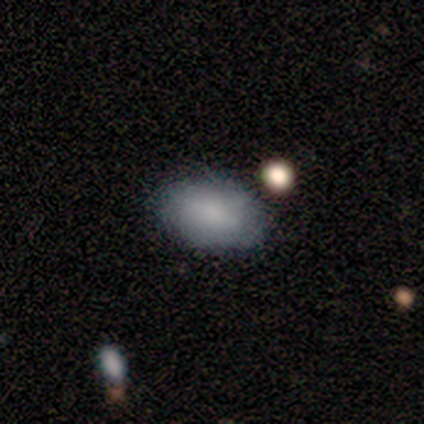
A smooth galaxy with no disk features (80%) that is in between round and cigar-shaped (100%). Merging: none (80%).